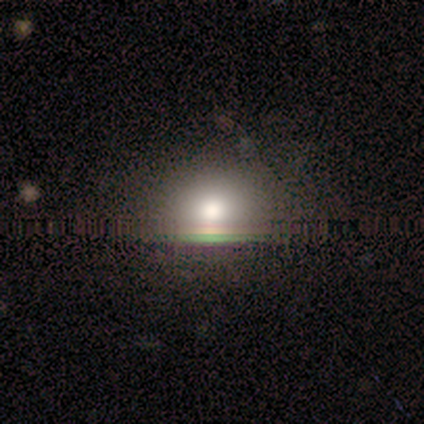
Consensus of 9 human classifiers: Smooth or featured? smooth (67%)
How rounded? round (83%)
Merging? none (71%)